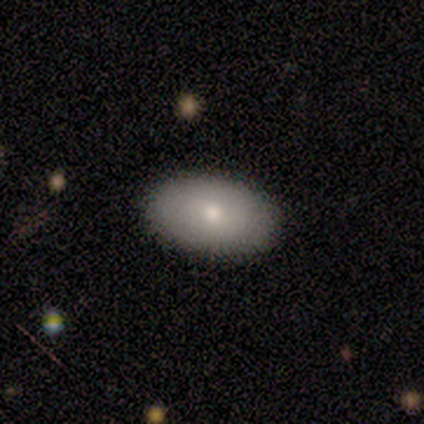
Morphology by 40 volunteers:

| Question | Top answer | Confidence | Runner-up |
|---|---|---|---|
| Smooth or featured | smooth | 72% | featured or disk (25%) |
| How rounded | in between | 90% | round (7%) |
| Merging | none | 87% | minor disturbance (8%) |